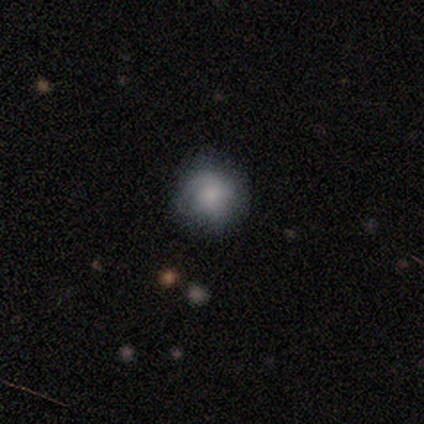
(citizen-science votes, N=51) Morphology: type=smooth (49%, tied with featured or disk); roundness=round (96%); merging=none (78%).